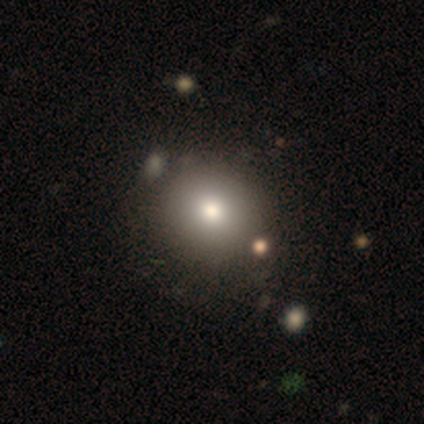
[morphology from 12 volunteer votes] Q: Smooth or featured?
A: smooth (58%); runner-up: star or artifact (25%)
Q: How rounded?
A: round (86%); runner-up: in between (14%)
Q: Merging?
A: none (67%); runner-up: minor disturbance (22%)